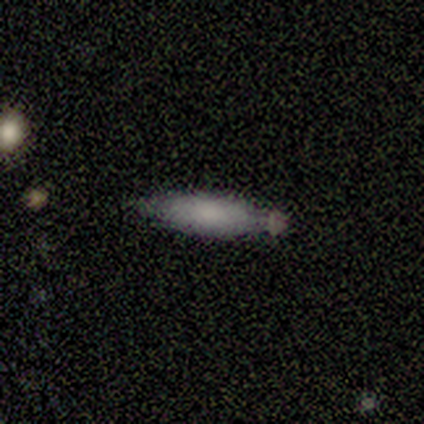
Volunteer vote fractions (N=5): Q: Smooth or featured?
A: smooth (100%)
Q: How rounded?
A: cigar-shaped (60%); runner-up: in between (40%)
Q: Merging?
A: minor disturbance (60%); runner-up: none (40%)